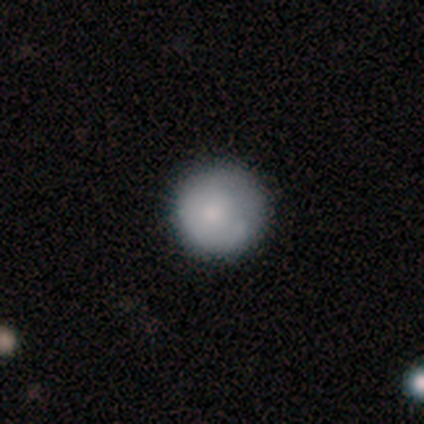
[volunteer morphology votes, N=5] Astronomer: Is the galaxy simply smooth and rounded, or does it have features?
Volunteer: smooth — 80%.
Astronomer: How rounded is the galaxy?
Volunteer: round — 100%.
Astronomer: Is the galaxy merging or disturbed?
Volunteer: none — 80%.